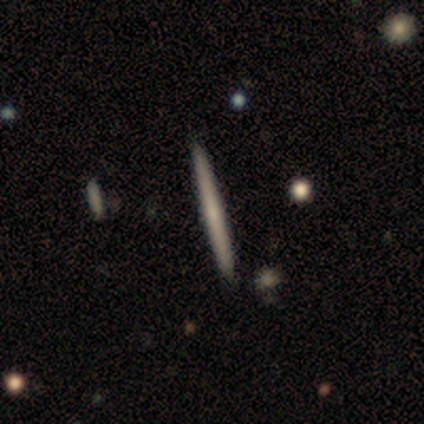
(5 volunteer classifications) This appears to be a featured or disk galaxy (80%) viewed edge-on (100%) with no central bulge (75%). Merging: none (80%).